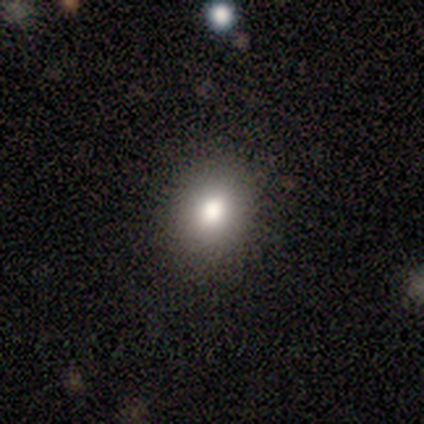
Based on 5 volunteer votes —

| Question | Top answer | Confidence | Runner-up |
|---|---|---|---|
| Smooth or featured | smooth | 80% | star or artifact (20%) |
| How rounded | round | 75% | in between (25%) |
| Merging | none | 50% | tied: minor disturbance (50%) |